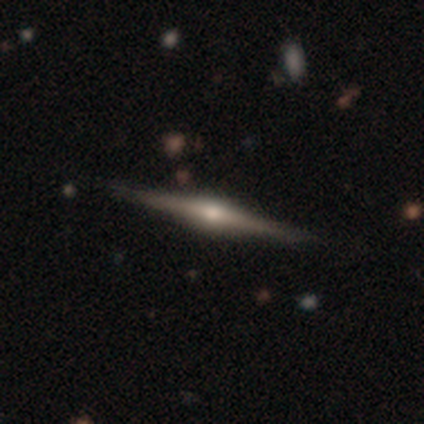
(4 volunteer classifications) This appears to be a featured or disk galaxy (100%) viewed edge-on (100%) with a rounded central bulge (75%). Merging: none (100%).